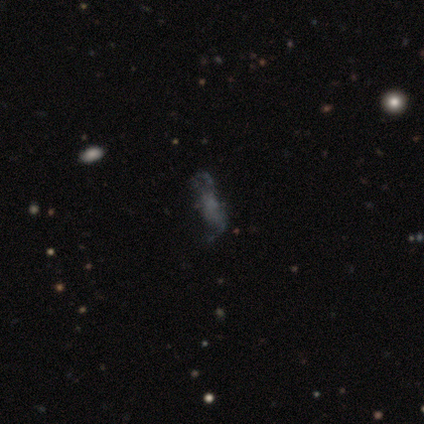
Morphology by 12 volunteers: This is marginally a smooth galaxy (42%, tied with featured or disk). How rounded: likely in between (60%). Merging: marginally none (40%).